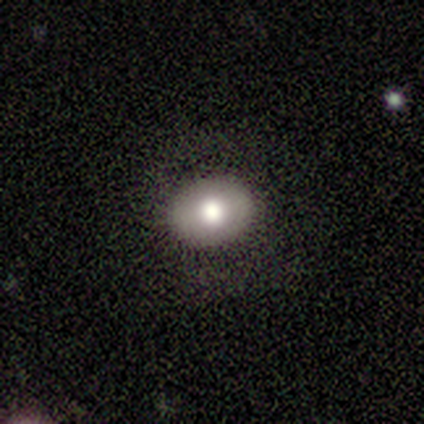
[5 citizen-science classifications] A smooth galaxy with no disk features (60%) that is in between round and cigar-shaped (67%). Merging: none (75%).